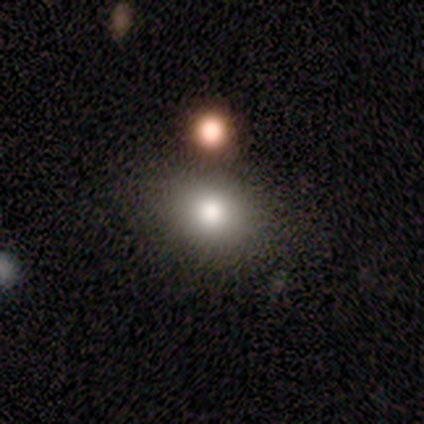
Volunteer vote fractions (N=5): Smooth or featured? 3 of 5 (60%) said smooth. How rounded? 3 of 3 (100%) said round. Merging? 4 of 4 (100%) said none.